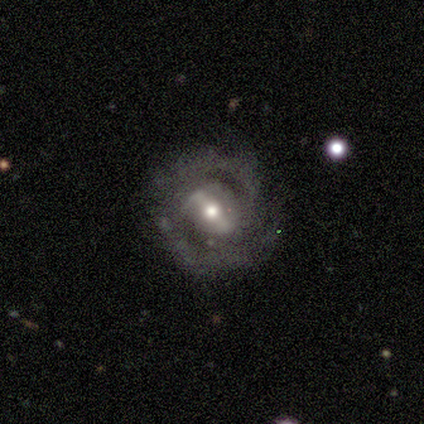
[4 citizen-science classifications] smooth-or-featured: featured or disk: 100% | smooth: 0% | star or artifact: 0%
  disk-edge-on: no: 100% | yes: 0%
    bar: strong: 75% | weak: 25% | no: 0%
    has-spiral-arms: yes: 100% | no: 0%
      spiral-winding: tight: 50% | medium: 25% | loose: 25%
      spiral-arm-count: 2: 75% | can't tell: 25% | 1: 0% | 3: 0% | 4: 0% | more than 4: 0%
    bulge-size: moderate: 100% | dominant: 0% | large: 0% | small: 0% | none: 0%
  merging: none: 100% | minor disturbance: 0% | major disturbance: 0% | merger: 0%